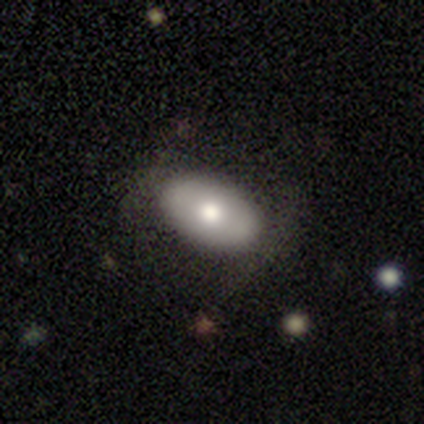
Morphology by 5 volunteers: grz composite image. It shows a smooth galaxy with no disk features (80%) that is in between round and cigar-shaped (100%). Merging: none (40%, tied with minor disturbance).